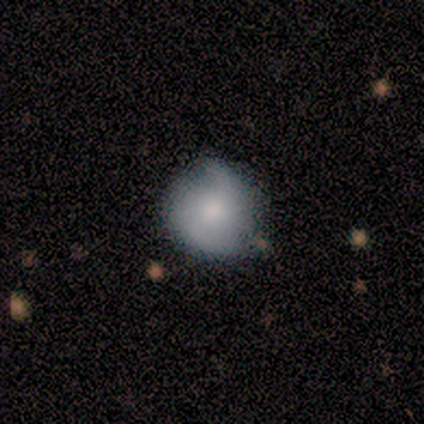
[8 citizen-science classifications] Q: Smooth or featured?
A: featured or disk (62%); runner-up: smooth (38%)
Q: Edge-on disk?
A: no (100%)
Q: Bar?
A: no (60%); runner-up: strong (20%)
Q: Spiral arms?
A: yes (100%)
Q: Spiral winding?
A: medium (40%); tied with: loose (40%)
Q: Spiral arm count?
A: 2 (80%); runner-up: 1 (20%)
Q: Bulge size?
A: moderate (80%); runner-up: small (20%)
Q: Merging?
A: none (50%); runner-up: minor disturbance (38%)